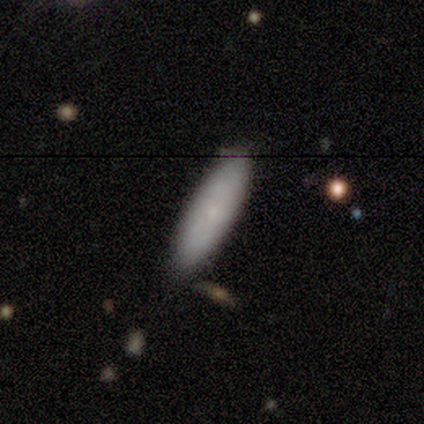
smooth_or_featured: smooth (p=0.76) [alt: featured or disk p=0.22]
how_rounded: cigar-shaped (p=0.54) [alt: in between p=0.44]
merging: none (p=0.45) [alt: minor disturbance p=0.04]